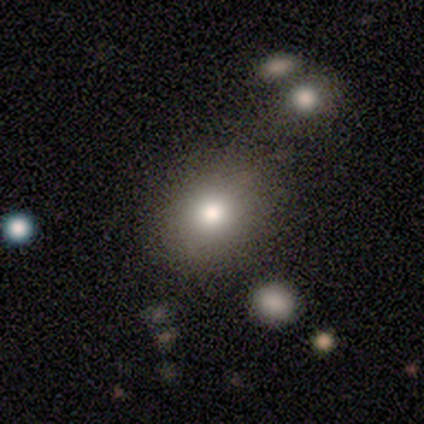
This is clearly a smooth galaxy (100%). How rounded: possibly in between (57%). Merging: clearly none (100%).